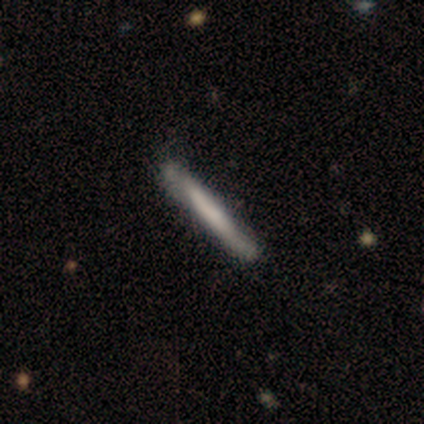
Overall: smooth (64%; featured or disk 29%). How rounded: cigar-shaped (100%). Merging: none (69%; minor disturbance 31%).